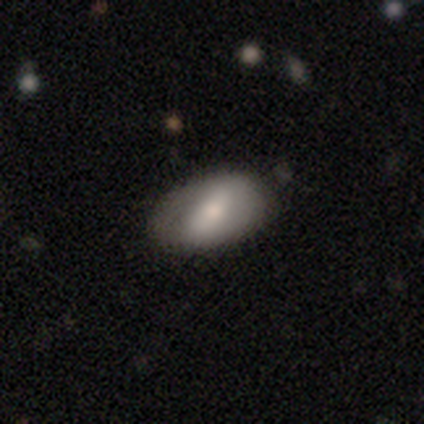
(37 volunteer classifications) smooth-or-featured: featured or disk: 57% | smooth: 41% | star or artifact: 3%
  disk-edge-on: no: 86% | yes: 14%
    bar: strong: 72% | no: 17% | weak: 11%
    has-spiral-arms: no: 78% | yes: 22%
    bulge-size: moderate: 56% | small: 33% | large: 11% | dominant: 0% | none: 0%
  merging: none: 67% | minor disturbance: 8% | merger: 3% | major disturbance: 0%